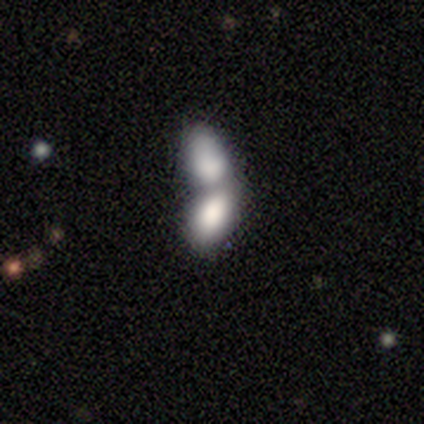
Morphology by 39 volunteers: Overall: smooth (74%). How rounded: in between (100%). Merging: merger (92%).